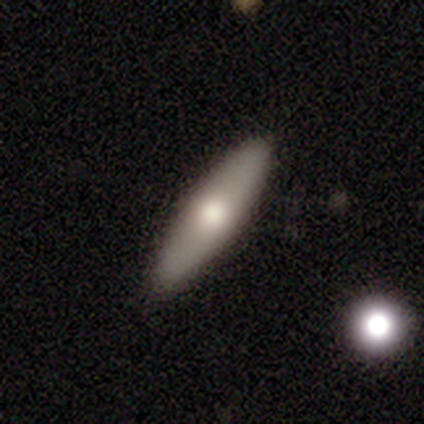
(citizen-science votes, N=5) A smooth galaxy with no disk features (60%) that is in between round and cigar-shaped (67%). Merging: none (100%).